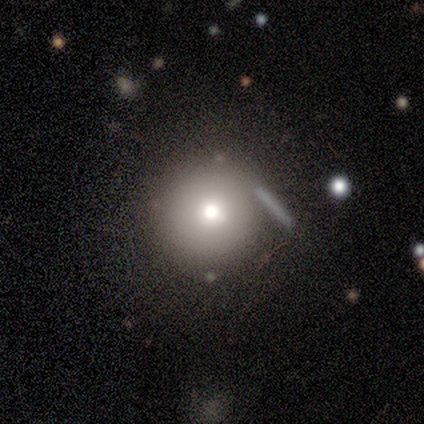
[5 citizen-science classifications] A smooth galaxy with no disk features (60%) that is round (100%). Merging: none (80%).